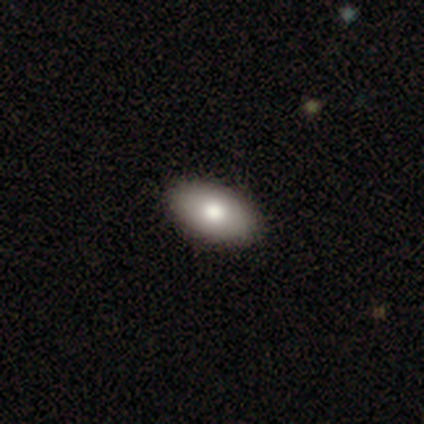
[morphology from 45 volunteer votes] Smooth or featured? smooth (78%)
How rounded? in between (94%)
Merging? none (93%)